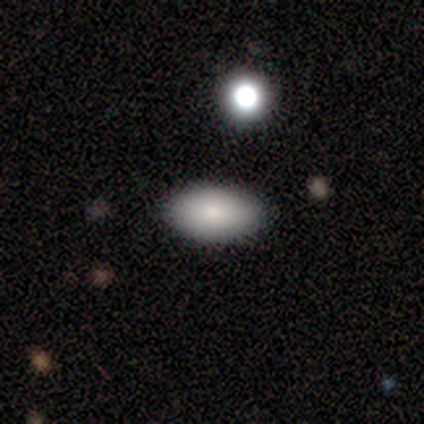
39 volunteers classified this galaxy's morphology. type=smooth (82%); roundness=in between (97%); merging=none (97%).